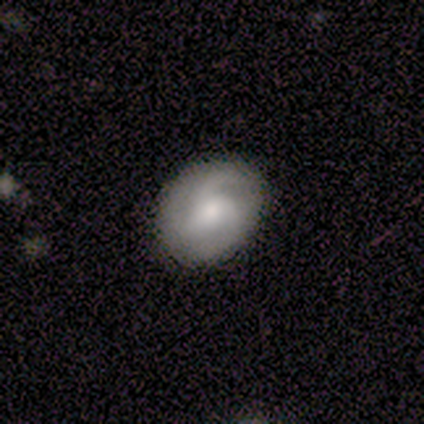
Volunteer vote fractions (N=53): Volunteers were most divided on "spiral winding" (2-way tie): tight: 34%, loose: 34%, medium: 31%. More confident: edge-on disk — no (100%); spiral arms — yes (91%); merging — none (82%); bar — no (78%); smooth or featured — featured or disk (60%); spiral arm count — 3 (55%); bulge size — moderate (53%).